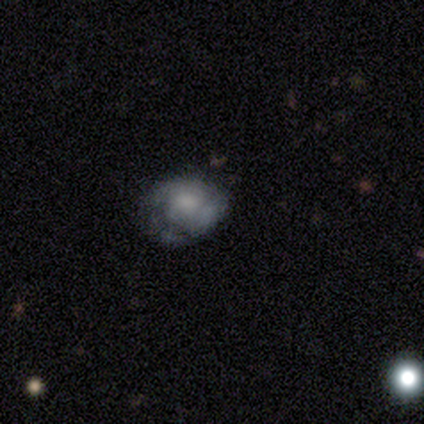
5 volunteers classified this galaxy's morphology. Smooth or featured?
  - featured or disk: 40% * (tied)
  - star or artifact: 40% * (tied)
  - smooth: 20%
Edge-on disk?
  - no: 100% *
  - yes: 0%
Bar?
  - no: 100% *
  - strong: 0%
  - weak: 0%
Spiral arms?
  - no: 100% *
  - yes: 0%
Bulge size?
  - moderate: 50% * (tied)
  - none: 50% * (tied)
  - dominant: 0%
  - large: 0%
  - small: 0%
Merging?
  - none: 67% *
  - merger: 33%
  - minor disturbance: 0%
  - major disturbance: 0%